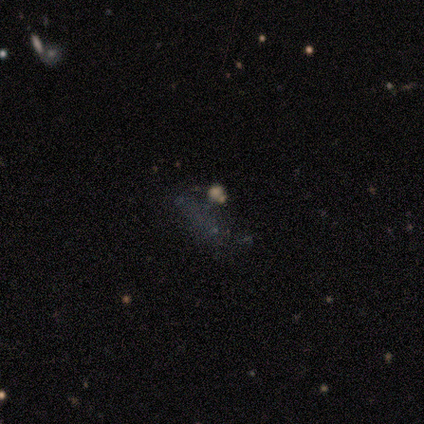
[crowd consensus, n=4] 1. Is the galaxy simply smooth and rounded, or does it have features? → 50% star or artifact, 25% smooth, 25% featured or disk.